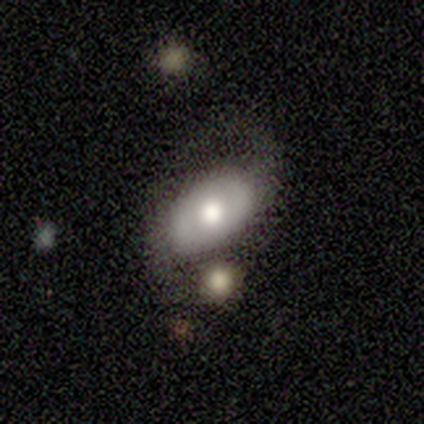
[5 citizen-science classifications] A featured or disk galaxy (60%) with no bar (100%), no spiral arms (67%) and a large central bulge (33%, tied with moderate and small). Merging: none (40%, tied with merger).